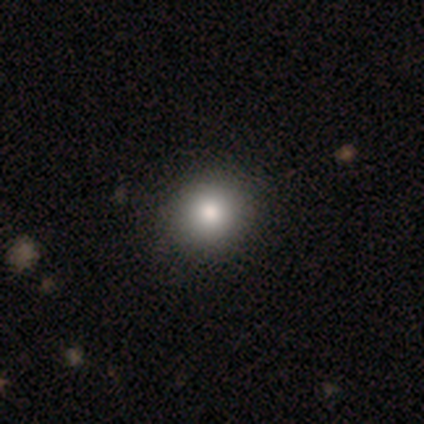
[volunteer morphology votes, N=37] This appears to be a smooth galaxy with no disk features (86%) that is round (100%). Merging: none (57%).